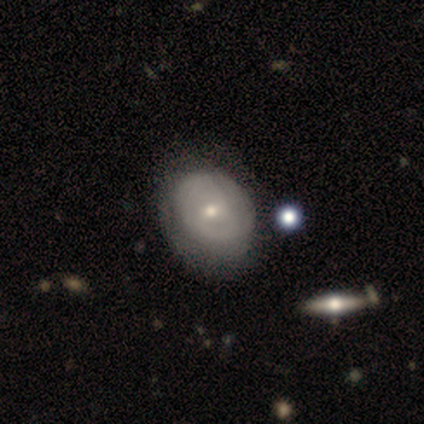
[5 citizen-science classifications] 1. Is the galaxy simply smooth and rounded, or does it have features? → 80% smooth, 20% featured or disk, 0% star or artifact.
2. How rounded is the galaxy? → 50% round (tied), 50% in between (tied), 0% cigar-shaped.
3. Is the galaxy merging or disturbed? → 60% none, 20% minor disturbance, 20% major disturbance, 0% merger.